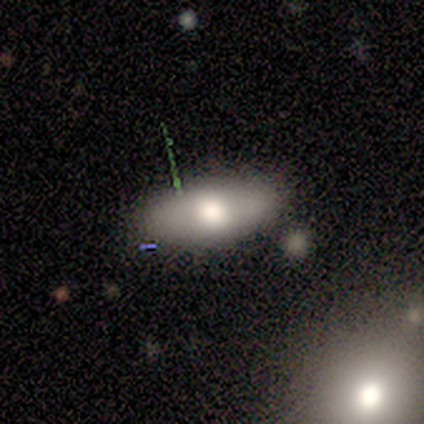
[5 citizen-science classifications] smooth-or-featured: smooth: 60% | featured or disk: 40% | star or artifact: 0%
  how-rounded: in between: 100% | round: 0% | cigar-shaped: 0%
  merging: none: 80% | merger: 20% | minor disturbance: 0% | major disturbance: 0%